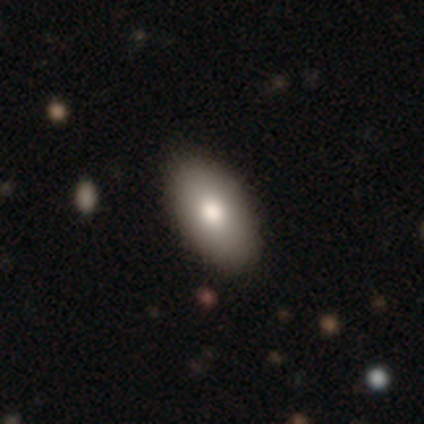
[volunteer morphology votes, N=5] This is marginally a smooth galaxy (40%, tied with featured or disk). How rounded: clearly in between (100%). Merging: clearly none (100%).